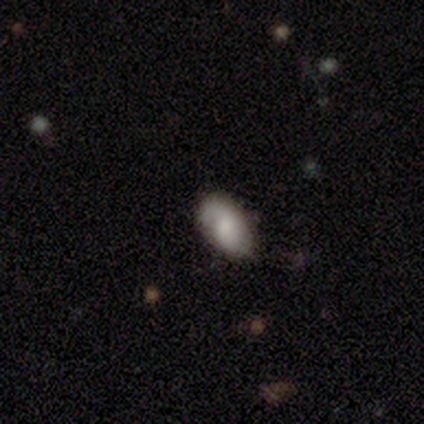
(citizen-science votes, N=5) smooth-or-featured: smooth: 80% | featured or disk: 20% | star or artifact: 0%
  how-rounded: in between: 100% | round: 0% | cigar-shaped: 0%
  merging: none: 60% | minor disturbance: 40% | major disturbance: 0% | merger: 0%